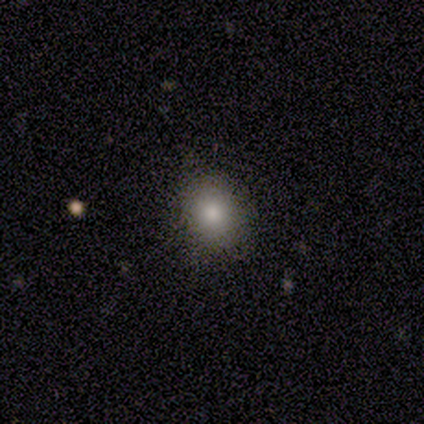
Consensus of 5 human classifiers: Q: Smooth or featured?
A: smooth (100%)
Q: How rounded?
A: in between (60%); runner-up: round (40%)
Q: Merging?
A: none (80%); runner-up: major disturbance (20%)